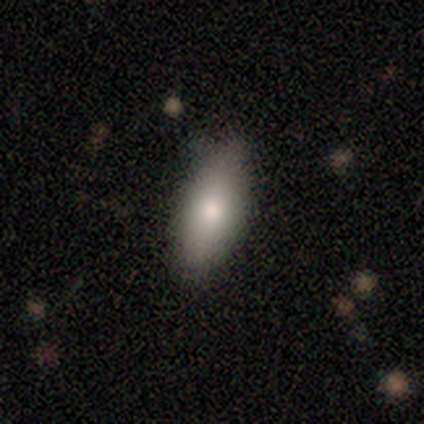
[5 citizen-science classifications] smooth_or_featured: smooth (p=1.00)
how_rounded: in between (p=0.80) [alt: cigar-shaped p=0.20]
merging: none (p=0.60) [alt: minor disturbance p=0.40]